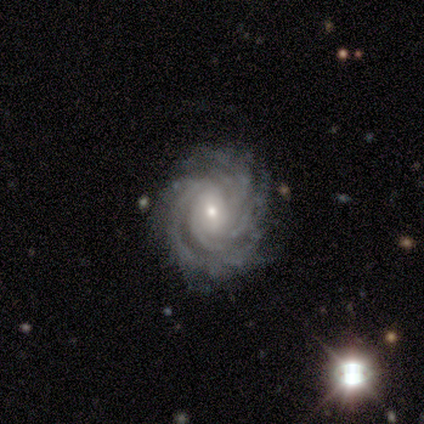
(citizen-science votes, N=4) Smooth or featured: featured or disk — 100%
Edge-on disk: no — 100%
Bar: no — 75% (weak — 25%)
Spiral arms: yes — 100%
Spiral winding: tight — 75% (loose — 25%)
Spiral arm count: can't tell — 50% (2 — 25%)
Bulge size: moderate — 50% (tied with small — 50%)
Merging: none — 50% (tied with minor disturbance — 50%)